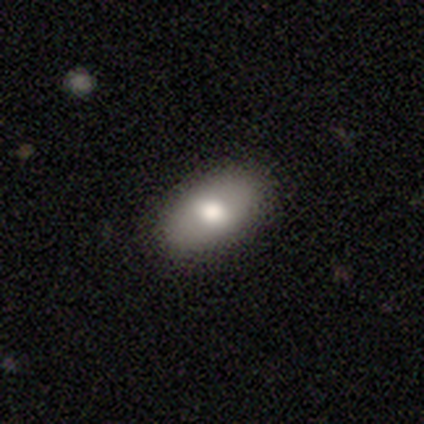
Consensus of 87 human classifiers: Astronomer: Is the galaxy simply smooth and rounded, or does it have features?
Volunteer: smooth — 67%.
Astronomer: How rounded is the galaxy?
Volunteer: in between — 91%.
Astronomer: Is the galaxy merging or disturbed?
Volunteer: none — 90%.